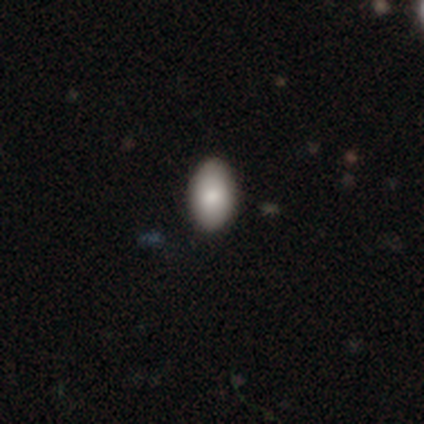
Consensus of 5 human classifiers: Overall: smooth (100%). How rounded: in between (100%). Merging: none (80%).